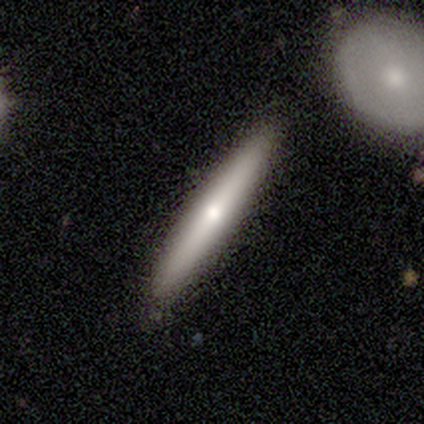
This appears to be a smooth galaxy with no disk features (60%) that is cigar-shaped (100%). Merging: none (75%).